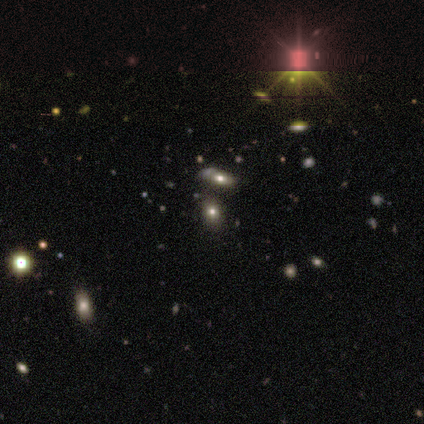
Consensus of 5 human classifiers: smooth-or-featured: star or artifact: 60% | smooth: 40% | featured or disk: 0%